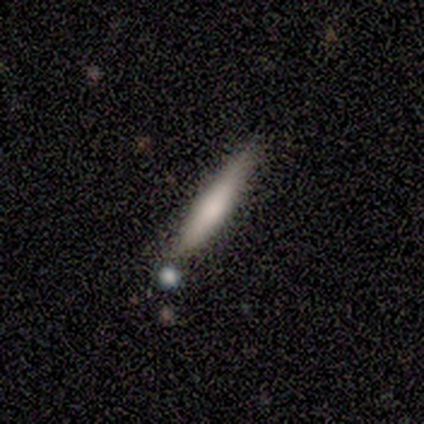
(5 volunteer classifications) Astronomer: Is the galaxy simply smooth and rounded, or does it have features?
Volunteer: featured or disk — 60% (runner-up: smooth, 40%).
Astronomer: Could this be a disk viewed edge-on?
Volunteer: yes — 100%.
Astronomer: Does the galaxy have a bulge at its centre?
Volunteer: boxy — 67%.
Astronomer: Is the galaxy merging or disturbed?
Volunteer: none — 60% (runner-up: major disturbance, 40%).